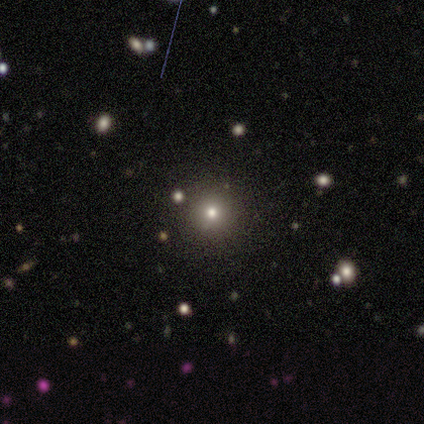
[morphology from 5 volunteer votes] Smooth or featured?
  - smooth: 80% *
  - star or artifact: 20%
  - featured or disk: 0%
How rounded?
  - round: 100% *
  - in between: 0%
  - cigar-shaped: 0%
Merging?
  - none: 75% *
  - minor disturbance: 25%
  - major disturbance: 0%
  - merger: 0%